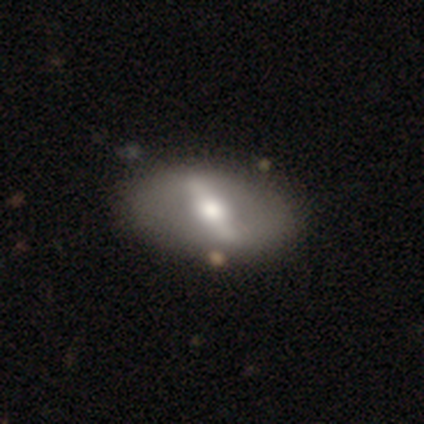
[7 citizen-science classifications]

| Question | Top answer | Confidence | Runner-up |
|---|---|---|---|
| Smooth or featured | featured or disk | 86% | smooth (14%) |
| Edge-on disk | no | 83% | yes (17%) |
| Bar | strong | 100% | — |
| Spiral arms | no | 80% | yes (20%) |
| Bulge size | moderate | 60% | large (40%) |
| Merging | none | 71% | major disturbance (29%) |